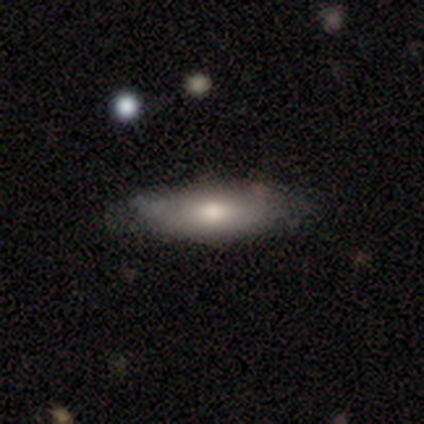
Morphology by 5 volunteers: A smooth galaxy with no disk features (80%) that is cigar-shaped (75%). Merging: minor disturbance (60%).